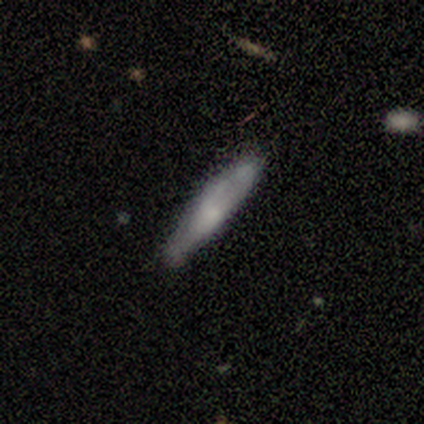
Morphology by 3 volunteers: A smooth galaxy with no disk features (67%) that is cigar-shaped (100%). Merging: none (100%).